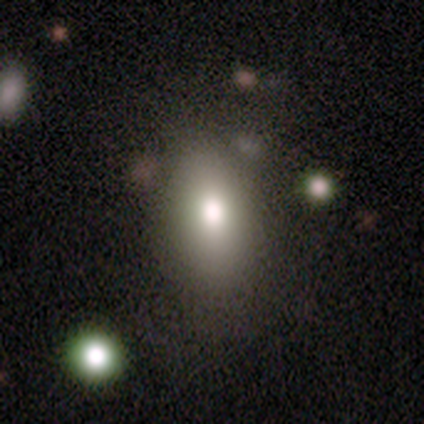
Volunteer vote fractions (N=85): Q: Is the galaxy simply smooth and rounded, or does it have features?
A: smooth — 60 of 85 (71%).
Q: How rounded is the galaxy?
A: in between — 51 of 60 (85%).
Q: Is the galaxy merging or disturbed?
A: none — 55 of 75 (73%).